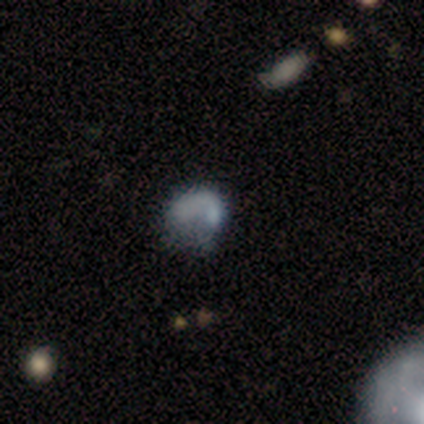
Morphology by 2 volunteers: Overall: smooth (100%). How rounded: round (50%, tied with in between). Merging: major disturbance (100%).